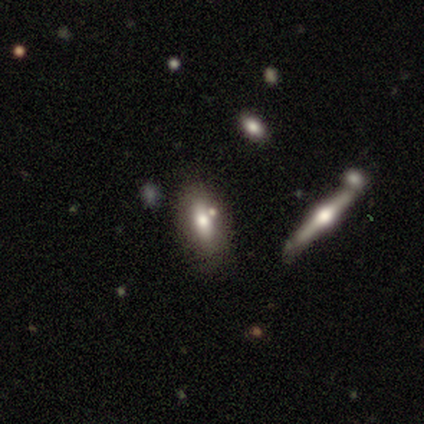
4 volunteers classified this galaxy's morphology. Q: Smooth or featured?
A: smooth (75%); runner-up: star or artifact (25%)
Q: How rounded?
A: cigar-shaped (100%)
Q: Merging?
A: none (67%); runner-up: minor disturbance (33%)